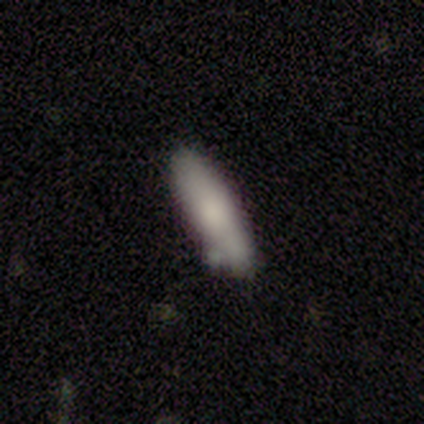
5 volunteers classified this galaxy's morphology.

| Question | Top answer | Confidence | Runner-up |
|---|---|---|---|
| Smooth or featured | smooth | 60% | featured or disk (20%) |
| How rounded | in between | 67% | cigar-shaped (33%) |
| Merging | none | 50% | tied: minor disturbance (50%) |